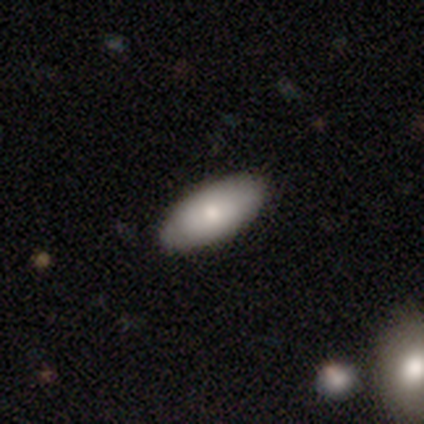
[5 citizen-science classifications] smooth-or-featured: smooth: 80% | featured or disk: 20% | star or artifact: 0%
  how-rounded: in between: 75% | round: 25% | cigar-shaped: 0%
  merging: none: 100% | minor disturbance: 0% | major disturbance: 0% | merger: 0%